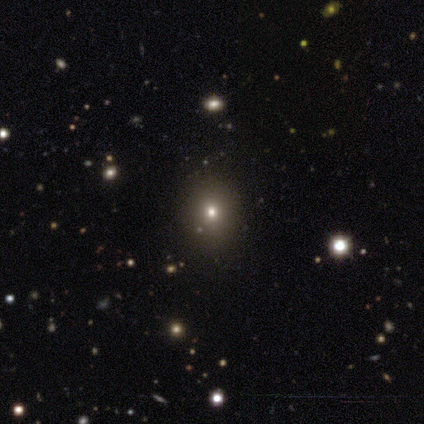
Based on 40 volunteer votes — This appears to be a smooth galaxy with no disk features (52%) that is round (57%). Merging: none (92%).